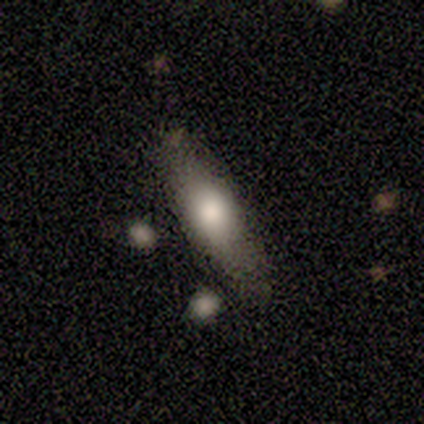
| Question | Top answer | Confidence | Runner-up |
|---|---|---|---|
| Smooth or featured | featured or disk | 50% | smooth (25%) |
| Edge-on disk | yes | 100% | — |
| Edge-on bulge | rounded | 100% | — |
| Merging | none | 100% | — |